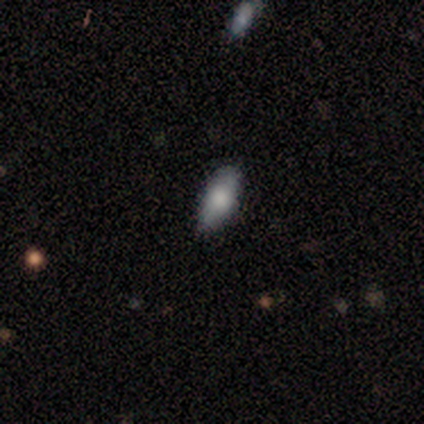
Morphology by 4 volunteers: type=smooth (100%); roundness=in between (75%); merging=none (50%, tied with minor disturbance).